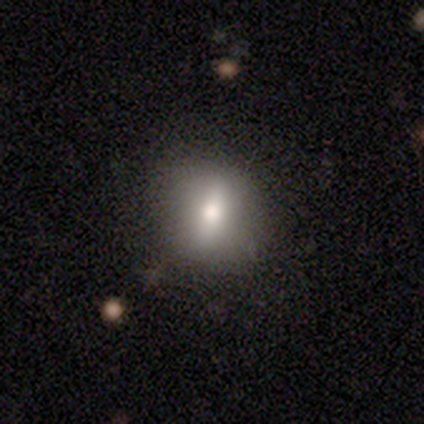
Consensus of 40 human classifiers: smooth-or-featured: smooth: 55% | featured or disk: 30% | star or artifact: 15%
  how-rounded: round: 55% | in between: 41% | cigar-shaped: 5%
  merging: none: 62% | minor disturbance: 9% | major disturbance: 0% | merger: 0%